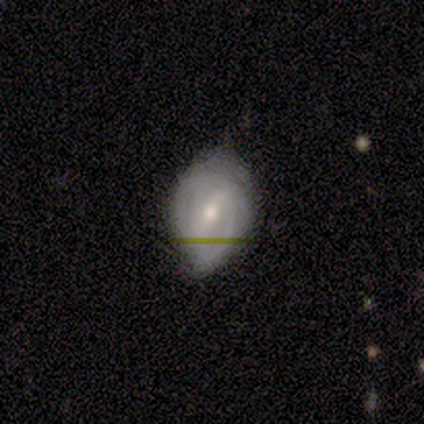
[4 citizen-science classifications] Volunteers were most divided on "spiral winding": tight: 67%, medium: 33%, loose: 0%. More confident: edge-on disk — no (100%); bar — weak (100%); spiral arms — yes (100%); bulge size — moderate (100%); smooth or featured — featured or disk (75%); merging — minor disturbance (75%); spiral arm count — 3 (67%).